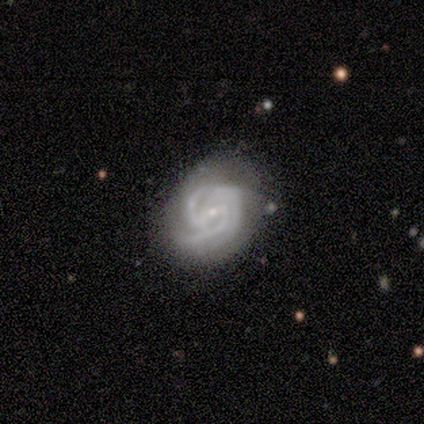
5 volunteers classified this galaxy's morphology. A featured or disk galaxy (80%) with a strong bar (50%, tied with weak), tight (50%, tied with medium) spiral arms (100%) and a small central bulge (100%). Merging: none (100%).